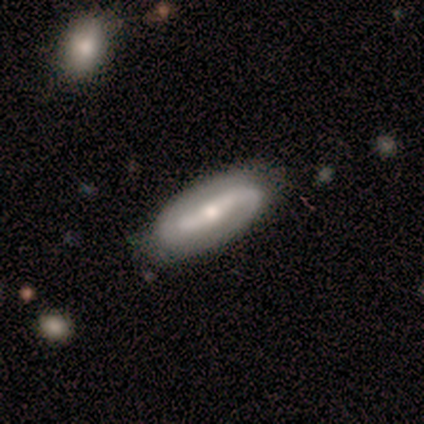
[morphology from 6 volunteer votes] This is clearly a featured or disk galaxy (83%). It is clearly not viewed edge-on (100%). Bar: likely strong (60%). Spiral arm pattern: clearly yes (100%). Spiral arm count: clearly 2 (100%). Spiral winding: marginally medium (40%, tied with loose). Central bulge: likely moderate (60%). Merging: likely none (67%).